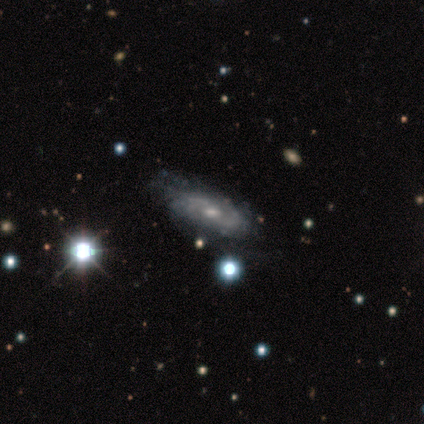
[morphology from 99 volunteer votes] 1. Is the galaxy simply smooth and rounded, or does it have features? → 84% featured or disk, 9% smooth, 7% star or artifact.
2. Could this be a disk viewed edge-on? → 92% no, 8% yes.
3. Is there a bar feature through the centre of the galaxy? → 50% weak, 46% no, 4% strong.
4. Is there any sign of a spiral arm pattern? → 84% yes, 16% no.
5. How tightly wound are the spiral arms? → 47% tight, 41% medium, 12% loose.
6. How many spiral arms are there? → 50% can't tell, 41% 2, 5% 3, 3% more than 4, 2% 4, 0% 1.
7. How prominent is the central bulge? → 67% moderate, 28% small, 4% none, 1% large, 0% dominant.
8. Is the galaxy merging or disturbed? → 51% none, 37% minor disturbance, 12% major disturbance, 0% merger.